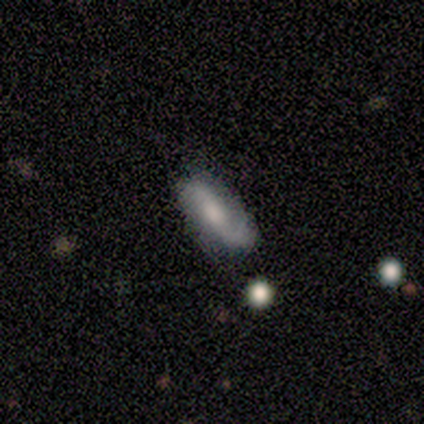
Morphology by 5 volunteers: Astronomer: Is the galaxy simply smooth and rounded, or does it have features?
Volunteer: featured or disk — 60% (runner-up: smooth, 40%).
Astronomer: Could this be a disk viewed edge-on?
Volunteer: no — 100%.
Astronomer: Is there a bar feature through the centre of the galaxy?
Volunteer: no — 67%.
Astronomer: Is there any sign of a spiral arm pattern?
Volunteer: yes — 100%.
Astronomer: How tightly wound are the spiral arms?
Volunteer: loose — 67%.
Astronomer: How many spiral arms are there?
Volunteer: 2 — 100%.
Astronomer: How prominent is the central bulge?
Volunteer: moderate — 67%.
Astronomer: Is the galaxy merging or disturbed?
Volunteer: none — 100%.